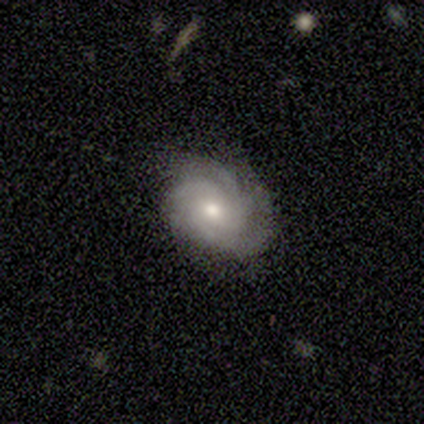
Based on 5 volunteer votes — Smooth or featured: featured or disk — 60% (smooth — 20%)
Edge-on disk: no — 100%
Bar: no — 100%
Spiral arms: yes — 100%
Spiral winding: tight — 67% (medium — 33%)
Spiral arm count: can't tell — 67% (3 — 33%)
Bulge size: small — 67% (moderate — 33%)
Merging: none — 75% (minor disturbance — 25%)